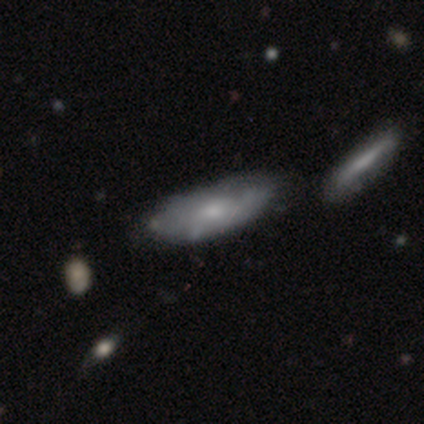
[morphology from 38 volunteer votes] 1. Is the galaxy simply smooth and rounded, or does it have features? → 53% smooth, 47% featured or disk, 0% star or artifact.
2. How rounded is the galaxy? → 65% in between, 35% cigar-shaped, 0% round.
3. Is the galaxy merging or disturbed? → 37% none, 24% minor disturbance, 21% merger, 5% major disturbance.